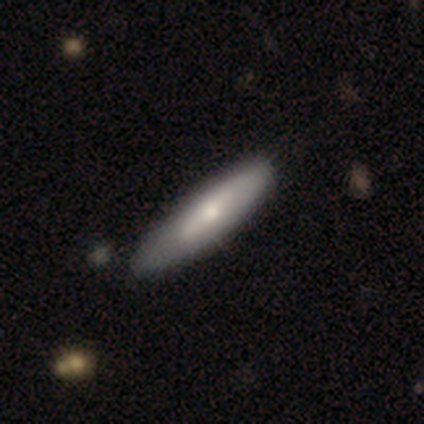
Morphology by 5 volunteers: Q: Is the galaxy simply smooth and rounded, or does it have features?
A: smooth — 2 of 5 (40%, tied with featured or disk).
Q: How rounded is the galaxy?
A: in between — 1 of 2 (50%, tied with cigar-shaped).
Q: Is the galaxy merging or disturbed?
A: none — 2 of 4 (50%).